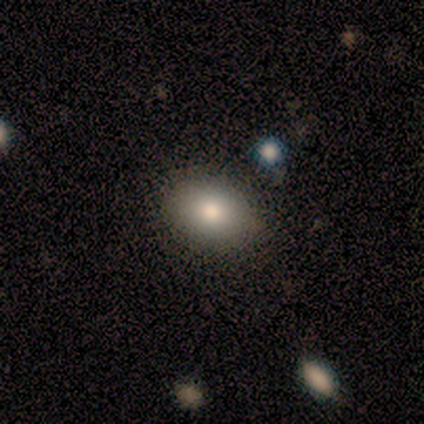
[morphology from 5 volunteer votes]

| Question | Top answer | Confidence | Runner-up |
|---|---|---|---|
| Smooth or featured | smooth | 100% | — |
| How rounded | in between | 80% | round (20%) |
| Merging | none | 80% | minor disturbance (20%) |